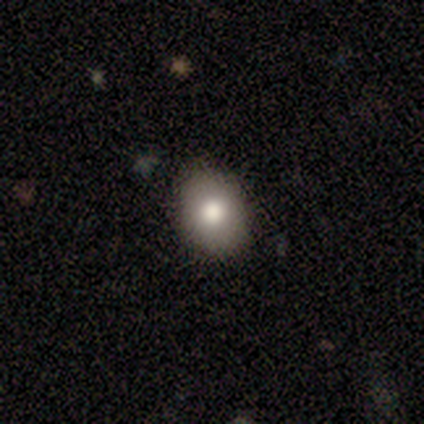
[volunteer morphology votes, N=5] A smooth galaxy with no disk features (80%) that is round (75%).

Vote fractions:
- Smooth or featured? smooth: 80% / featured or disk: 20% / star or artifact: 0%
- How rounded? round: 75% / in between: 25% / cigar-shaped: 0%
- Merging? none: 100% / minor disturbance: 0% / major disturbance: 0% / merger: 0%